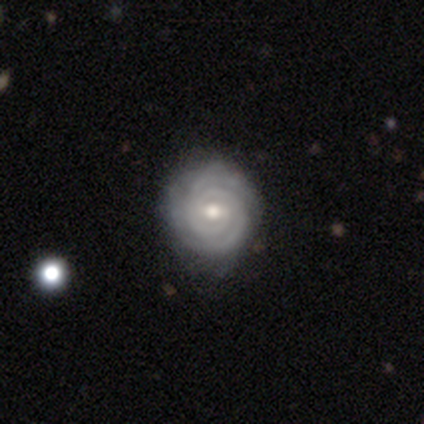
Q: Smooth or featured?
A: featured or disk (90%); runner-up: smooth (10%)
Q: Edge-on disk?
A: no (100%)
Q: Bar?
A: no (78%); runner-up: strong (11%)
Q: Spiral arms?
A: yes (100%)
Q: Spiral winding?
A: tight (89%); runner-up: medium (11%)
Q: Spiral arm count?
A: 2 (67%); runner-up: can't tell (33%)
Q: Bulge size?
A: moderate (78%); runner-up: small (22%)
Q: Merging?
A: none (60%); runner-up: minor disturbance (30%)